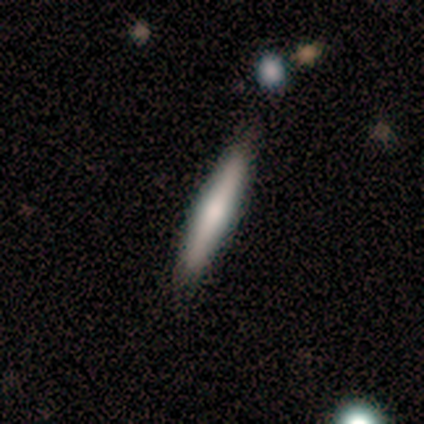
Morphology: type=featured or disk (56%); edge-on=yes (100%); edge-on bulge=rounded (80%); merging=none (78%).